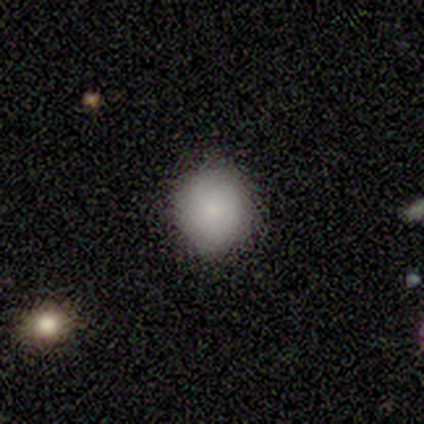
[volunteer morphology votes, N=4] This is clearly a smooth galaxy (100%). How rounded: clearly round (100%). Merging: likely none (75%).